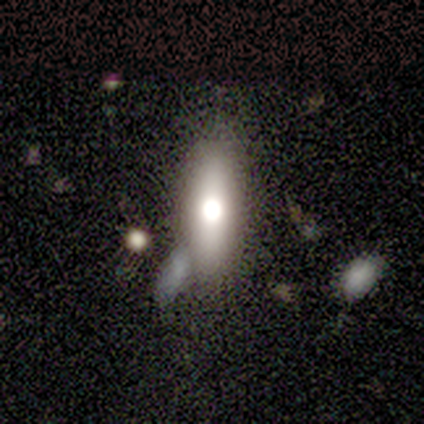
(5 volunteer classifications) Smooth or featured? smooth (60%)
How rounded? round (33%, tied with in between and cigar-shaped)
Merging? none (60%)